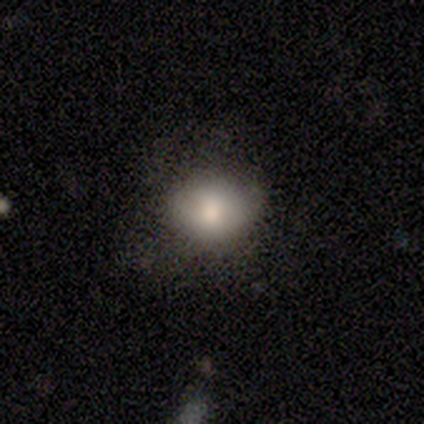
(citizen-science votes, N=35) Smooth or featured?
  - smooth: 89% *
  - featured or disk: 11%
  - star or artifact: 0%
How rounded?
  - round: 68% *
  - in between: 32%
  - cigar-shaped: 0%
Merging?
  - none: 54% *
  - major disturbance: 23%
  - minor disturbance: 20%
  - merger: 3%